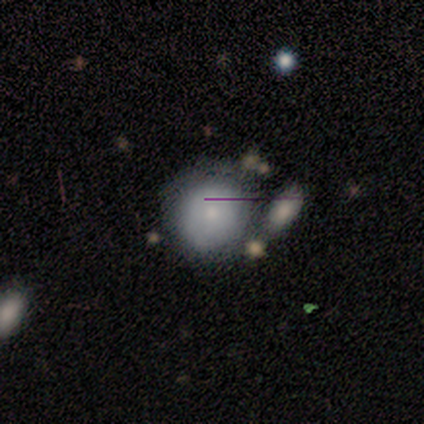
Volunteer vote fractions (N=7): Smooth or featured? smooth (86%)
How rounded? round (83%)
Merging? none (71%)